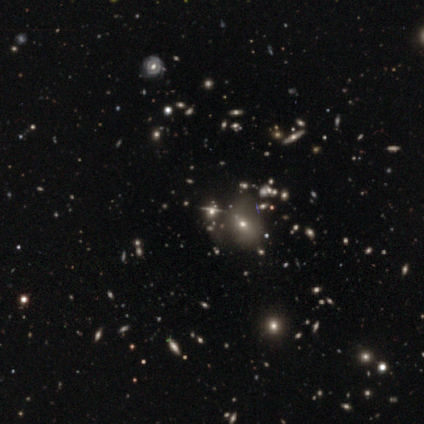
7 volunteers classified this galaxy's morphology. Q: Smooth or featured?
A: star or artifact (71%); runner-up: smooth (14%)